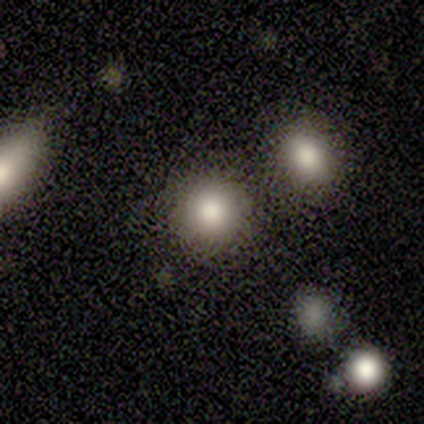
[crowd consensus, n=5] Smooth or featured? 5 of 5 (100%) said smooth. How rounded? 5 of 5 (100%) said round. Merging? 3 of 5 (60%) said none.